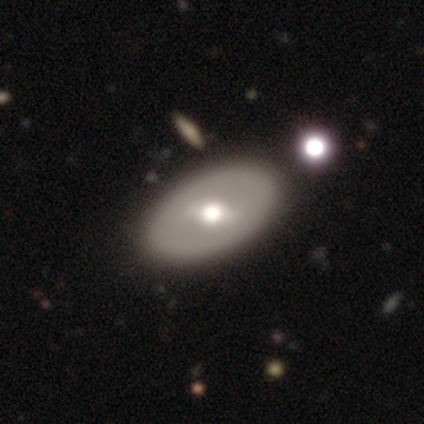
Overall: featured or disk (57%; smooth 40%). Edge-on disk: no (96%). Bar: weak (64%). Spiral arms: no (73%). Bulge size: moderate (73%). Merging: none (64%).